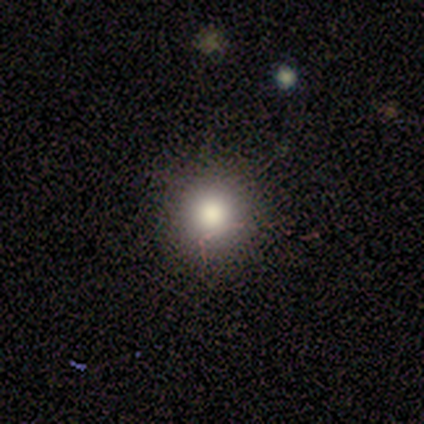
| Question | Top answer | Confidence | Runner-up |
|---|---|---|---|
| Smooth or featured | smooth | 38% | tied: star or artifact (38%) |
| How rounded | round | 100% | — |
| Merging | none | 100% | — |